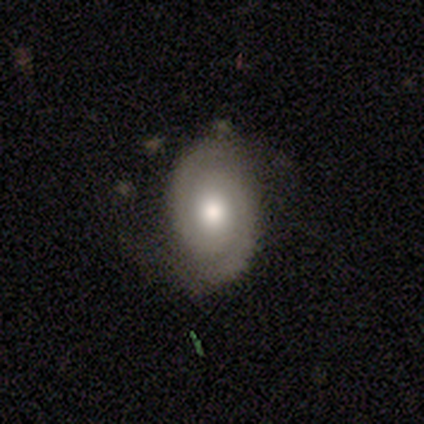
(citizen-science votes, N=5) smooth_or_featured: featured or disk (p=0.80) [alt: star or artifact p=0.20]
disk_edge_on: no (p=1.00)
bar: no (p=0.75) [alt: weak p=0.25]
has_spiral_arms: yes (p=1.00)
spiral_winding: tight (p=1.00)
spiral_arm_count: 2 (p=1.00)
bulge_size: large (p=0.50) [tied with: moderate p=0.50]
merging: none (p=0.50) [alt: minor disturbance p=0.25]